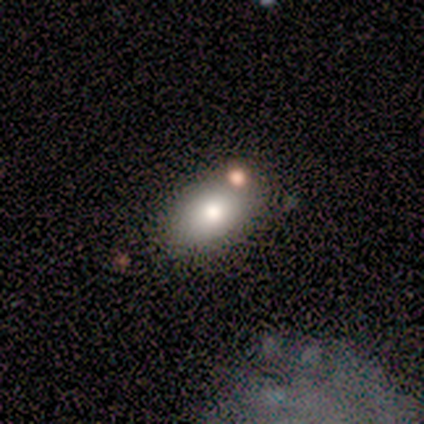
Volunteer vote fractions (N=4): Morphology: type=smooth (100%); roundness=in between (100%); merging=none (75%).